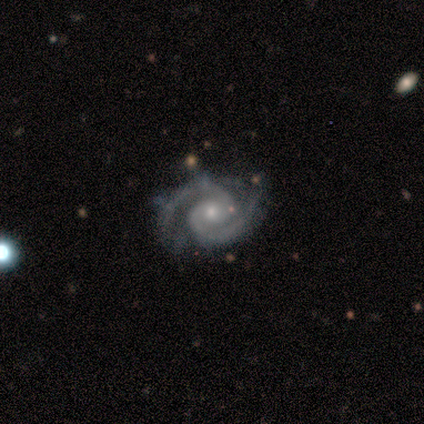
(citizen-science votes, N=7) Morphology: type=featured or disk (100%); edge-on=no (100%); bar=no (57%); spiral arms=yes (100%); winding=medium (57%); arm count=2 (86%); bulge=moderate (57%); merging=none (86%).